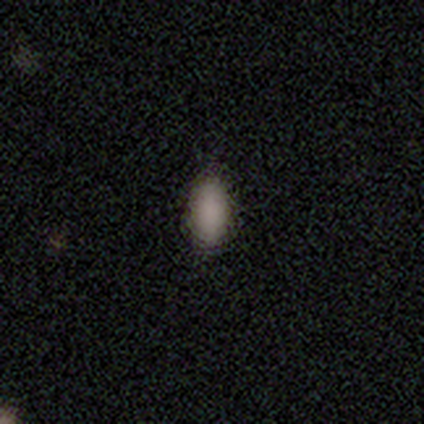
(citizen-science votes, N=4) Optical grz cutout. It shows a smooth galaxy with no disk features (100%) that is in between round and cigar-shaped (100%). Merging: none (100%).